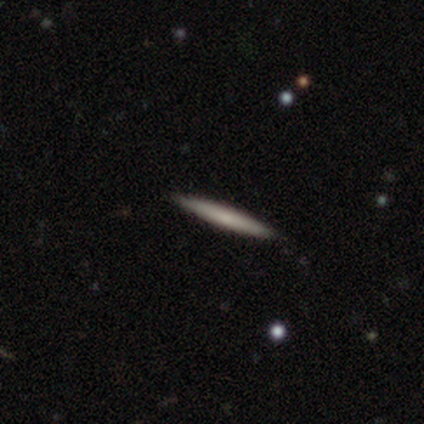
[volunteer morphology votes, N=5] Smooth or featured?
  - smooth: 80% *
  - star or artifact: 20%
  - featured or disk: 0%
How rounded?
  - cigar-shaped: 100% *
  - round: 0%
  - in between: 0%
Merging?
  - none: 100% *
  - minor disturbance: 0%
  - major disturbance: 0%
  - merger: 0%